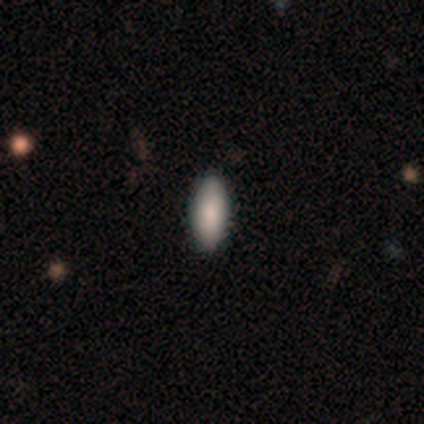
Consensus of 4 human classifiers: Smooth or featured? smooth (100%)
How rounded? in between (100%)
Merging? none (100%)